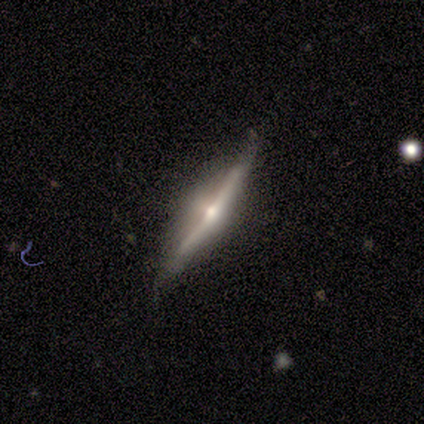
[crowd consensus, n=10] A featured or disk galaxy (100%) viewed edge-on (100%) with a rounded central bulge (90%).

Vote fractions:
- Smooth or featured? featured or disk: 100% / smooth: 0% / star or artifact: 0%
- Edge-on disk? yes: 100% / no: 0%
- Edge-on bulge? rounded: 90% / none: 10% / boxy: 0%
- Merging? none: 80% / minor disturbance: 20% / major disturbance: 0% / merger: 0%